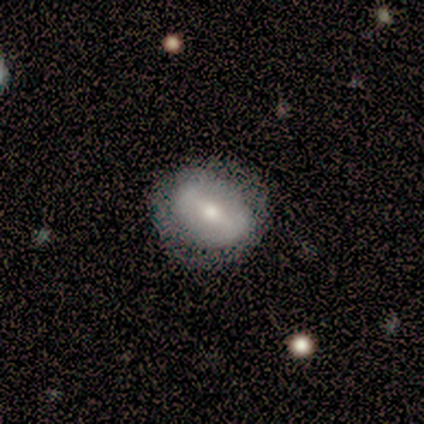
This is clearly a smooth galaxy (100%). How rounded: clearly round (100%). Merging: clearly minor disturbance (100%).